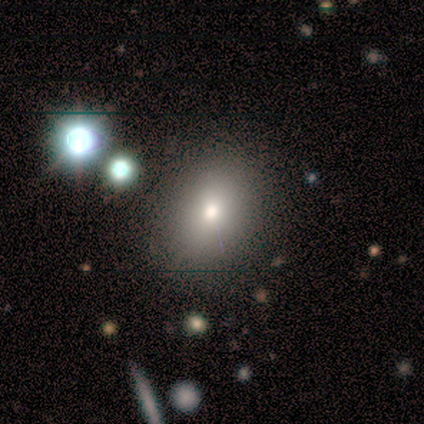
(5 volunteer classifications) This appears to be a smooth galaxy with no disk features (80%) that is round (50%, tied with in between). Merging: none (100%).